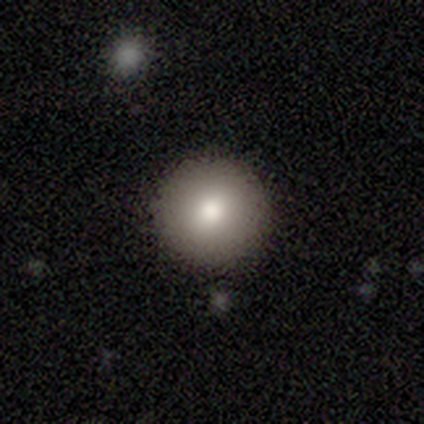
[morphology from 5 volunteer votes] smooth_or_featured: smooth (p=0.80) [alt: featured or disk p=0.20]
how_rounded: round (p=1.00)
merging: none (p=1.00)